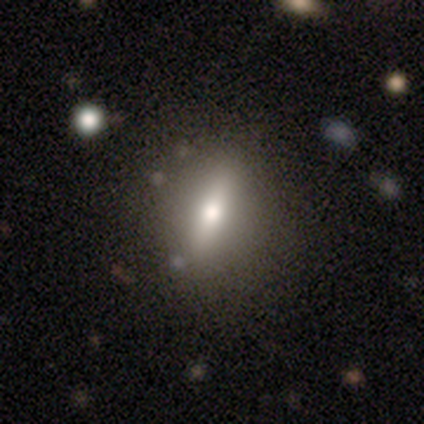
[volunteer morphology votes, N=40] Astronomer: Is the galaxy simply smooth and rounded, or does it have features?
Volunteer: smooth — 55% (runner-up: featured or disk, 42%).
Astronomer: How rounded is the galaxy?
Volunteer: in between — 55%.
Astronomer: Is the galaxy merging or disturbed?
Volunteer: none — 64%.